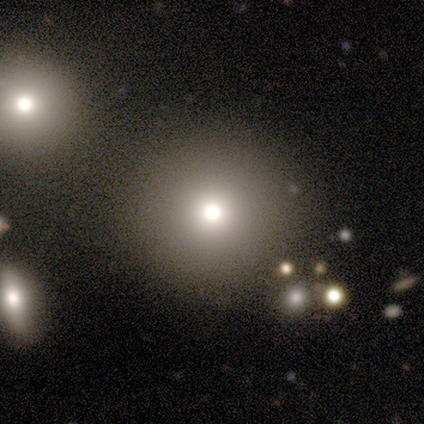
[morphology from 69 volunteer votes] Smooth or featured? 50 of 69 (72%) said smooth. How rounded? 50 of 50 (100%) said round. Merging? 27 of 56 (48%) said none.